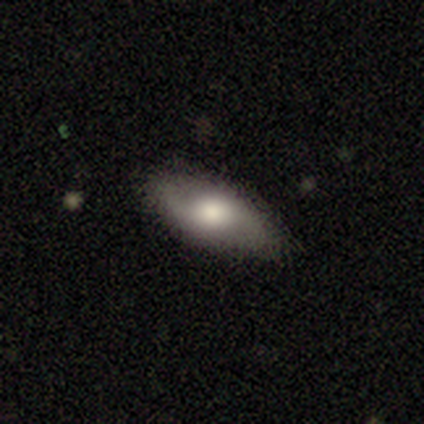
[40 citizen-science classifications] Smooth or featured? featured or disk (57%)
Edge-on disk? no (91%)
Bar? no (71%)
Spiral arms? yes (86%)
Spiral winding? loose (72%)
Spiral arm count? 2 (89%)
Bulge size? moderate (48%)
Merging? none (90%)